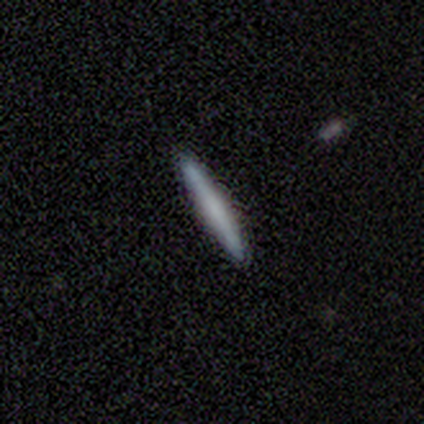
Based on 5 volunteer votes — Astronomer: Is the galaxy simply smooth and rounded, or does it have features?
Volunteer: smooth — 80%.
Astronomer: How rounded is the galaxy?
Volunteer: cigar-shaped — 100%.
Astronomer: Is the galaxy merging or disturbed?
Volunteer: none — 100%.